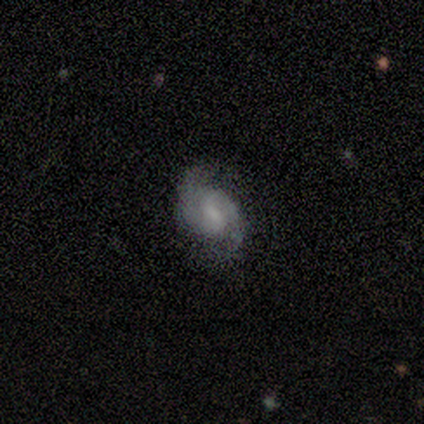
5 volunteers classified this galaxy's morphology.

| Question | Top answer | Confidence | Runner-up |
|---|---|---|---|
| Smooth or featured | featured or disk | 60% | smooth (40%) |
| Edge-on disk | no | 100% | — |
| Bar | weak | 67% | no (33%) |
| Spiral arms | yes | 100% | — |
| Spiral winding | loose | 67% | medium (33%) |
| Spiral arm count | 2 | 100% | — |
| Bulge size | none | 67% | small (33%) |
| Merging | none | 60% | minor disturbance (40%) |